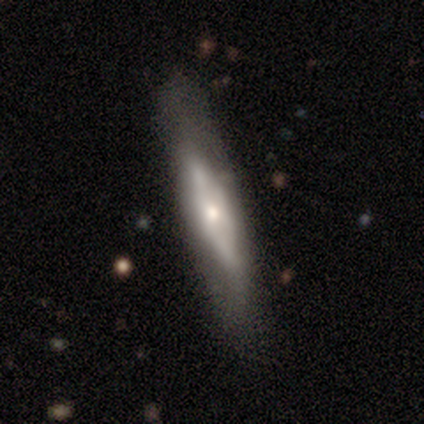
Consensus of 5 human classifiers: Smooth or featured?
  - featured or disk: 100% *
  - smooth: 0%
  - star or artifact: 0%
Edge-on disk?
  - yes: 80% *
  - no: 20%
Edge-on bulge?
  - rounded: 50% *
  - boxy: 25%
  - none: 25%
Merging?
  - none: 80% *
  - merger: 20%
  - minor disturbance: 0%
  - major disturbance: 0%